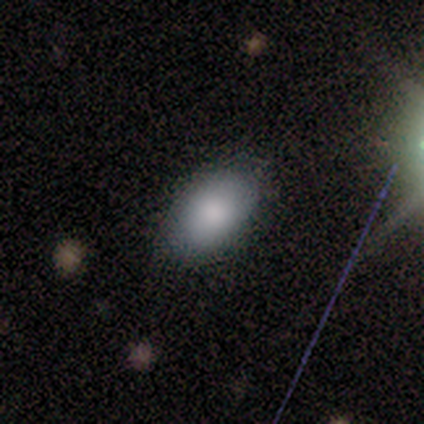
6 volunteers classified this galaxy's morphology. Volunteers were most divided on "smooth or featured": smooth: 50%, featured or disk: 33%, star or artifact: 17%. More confident: how rounded — in between (100%); merging — none (100%).